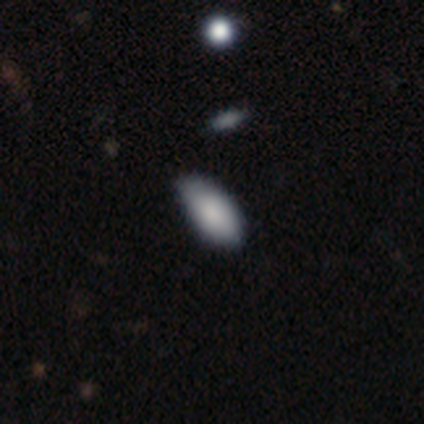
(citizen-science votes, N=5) smooth-or-featured: smooth: 100% | featured or disk: 0% | star or artifact: 0%
  how-rounded: in between: 100% | round: 0% | cigar-shaped: 0%
  merging: minor disturbance: 60% | none: 40% | major disturbance: 0% | merger: 0%